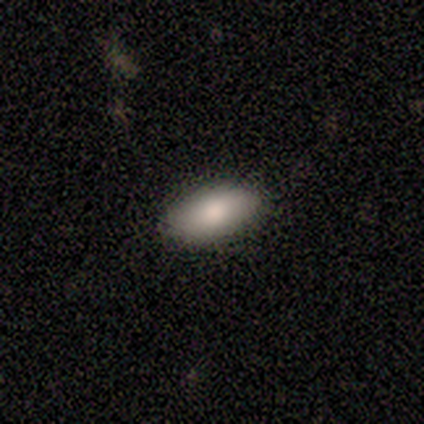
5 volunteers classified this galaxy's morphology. This is clearly a smooth galaxy (100%). How rounded: clearly in between (100%). Merging: likely none (60%).